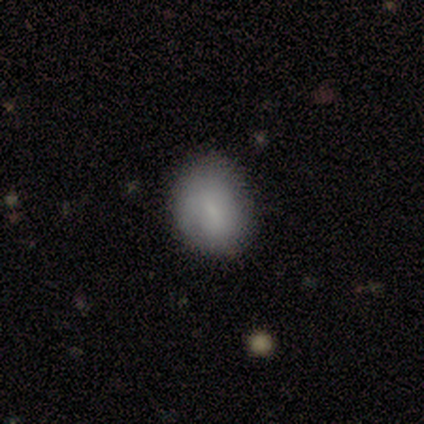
smooth_or_featured: smooth (p=1.00)
how_rounded: in between (p=0.80) [alt: round p=0.20]
merging: none (p=0.60) [alt: minor disturbance p=0.40]